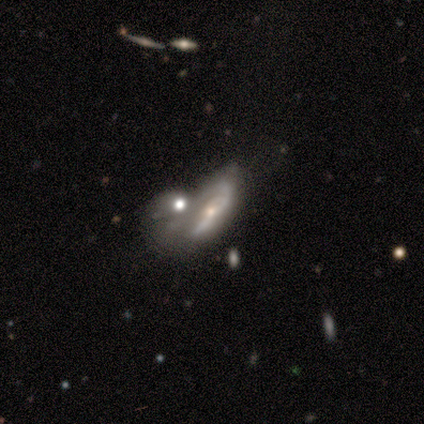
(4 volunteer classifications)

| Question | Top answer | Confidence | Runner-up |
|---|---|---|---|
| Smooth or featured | smooth | 75% | featured or disk (25%) |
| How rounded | cigar-shaped | 67% | in between (33%) |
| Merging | merger | 75% | major disturbance (25%) |